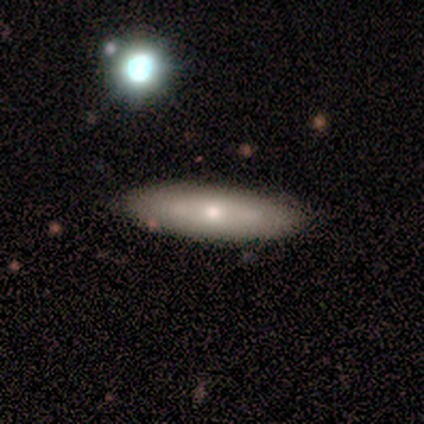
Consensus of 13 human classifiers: featured or disk 54%, smooth 38%, star or artifact 8%. Down the decision tree: edge-on disk — no (57%); bar — no (100%); spiral arms — no (100%); bulge size — small (75%); merging — none (92%).